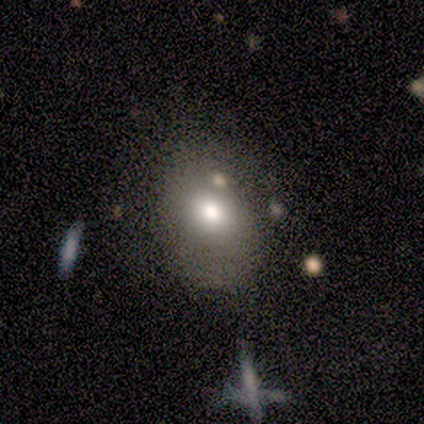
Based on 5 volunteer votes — Morphology: type=smooth (60%); roundness=in between (67%); merging=none (67%).